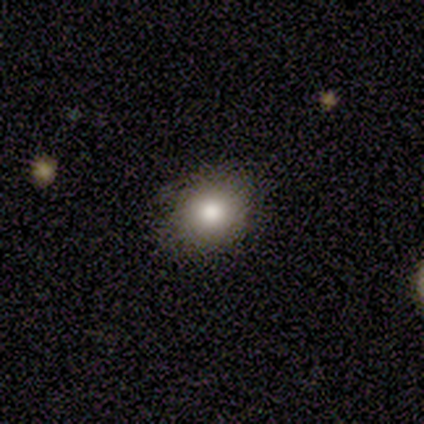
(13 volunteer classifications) smooth-or-featured: smooth: 69% | featured or disk: 15% | star or artifact: 15%
  how-rounded: round: 67% | in between: 33% | cigar-shaped: 0%
  merging: none: 73% | minor disturbance: 27% | major disturbance: 0% | merger: 0%